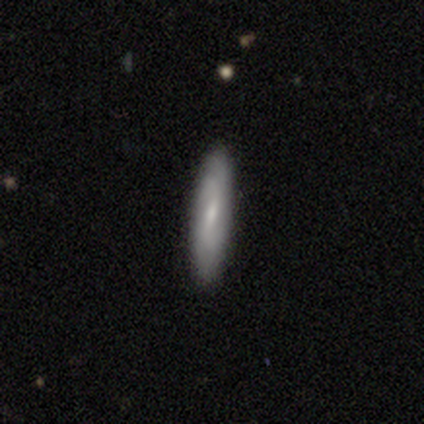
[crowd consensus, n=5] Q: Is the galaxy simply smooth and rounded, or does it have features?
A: smooth — 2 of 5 (40%, tied with featured or disk).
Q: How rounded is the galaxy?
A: cigar-shaped — 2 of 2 (100%).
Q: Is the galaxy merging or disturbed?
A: none — 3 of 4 (75%).